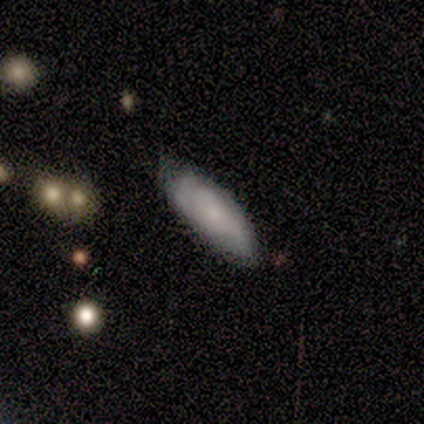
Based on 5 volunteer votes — Q: Smooth or featured?
A: smooth (60%); runner-up: featured or disk (40%)
Q: How rounded?
A: in between (100%)
Q: Merging?
A: none (100%)